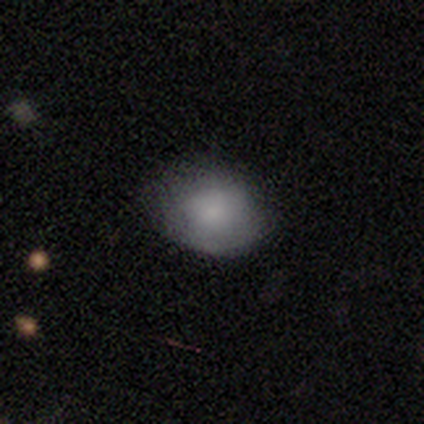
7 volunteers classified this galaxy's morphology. Smooth or featured? 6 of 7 (86%) said smooth. How rounded? 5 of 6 (83%) said in between. Merging? 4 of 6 (67%) said minor disturbance.